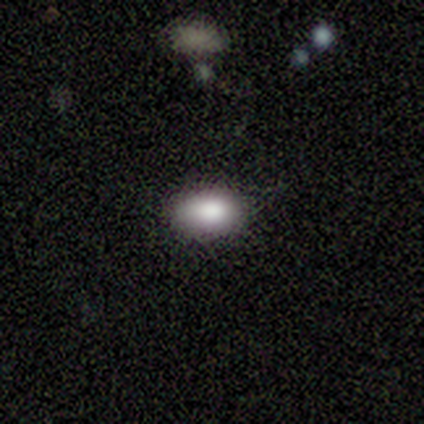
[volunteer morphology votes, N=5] Consensus on every question: smooth or featured — smooth (100%); how rounded — in between (100%); merging — none (100%).